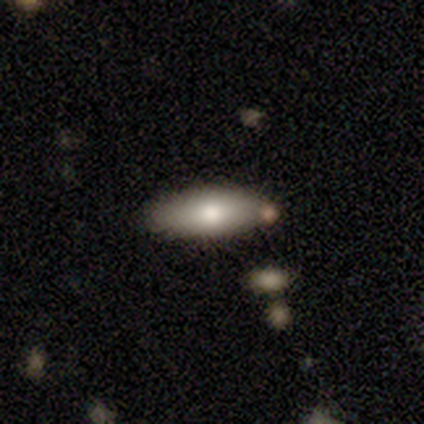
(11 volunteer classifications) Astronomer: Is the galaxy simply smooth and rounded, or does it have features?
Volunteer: smooth — 64%.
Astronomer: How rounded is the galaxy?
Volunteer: cigar-shaped — 71%.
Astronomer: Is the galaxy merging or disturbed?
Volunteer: none — 100%.